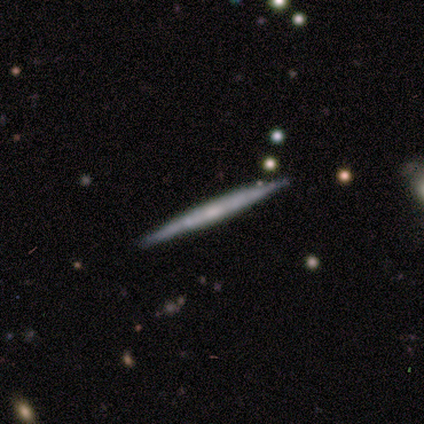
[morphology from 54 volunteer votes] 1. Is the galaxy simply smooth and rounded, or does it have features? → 83% featured or disk, 15% smooth, 2% star or artifact.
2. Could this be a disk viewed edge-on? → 100% yes, 0% no.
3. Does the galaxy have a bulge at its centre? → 62% none, 31% rounded, 7% boxy.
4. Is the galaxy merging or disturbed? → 96% none, 4% minor disturbance, 0% major disturbance, 0% merger.